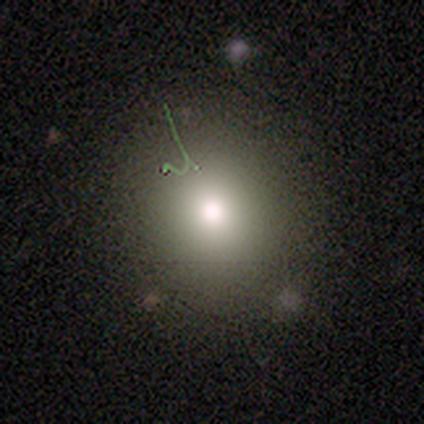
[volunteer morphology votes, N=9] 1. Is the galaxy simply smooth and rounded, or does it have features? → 78% smooth, 11% featured or disk, 11% star or artifact.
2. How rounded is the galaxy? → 100% round, 0% in between, 0% cigar-shaped.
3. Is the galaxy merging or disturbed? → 100% none, 0% minor disturbance, 0% major disturbance, 0% merger.